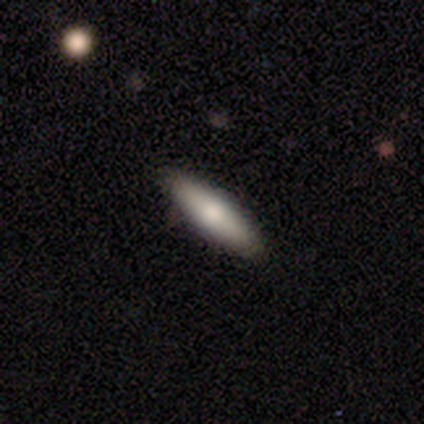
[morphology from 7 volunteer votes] A smooth galaxy with no disk features (100%) that is cigar-shaped (57%). Merging: none (100%).